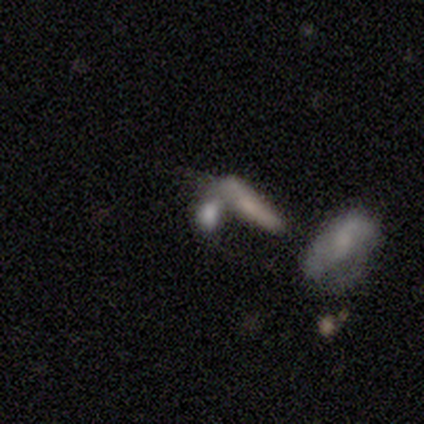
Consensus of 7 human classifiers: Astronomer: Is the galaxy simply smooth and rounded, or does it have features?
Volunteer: star or artifact — 86%.